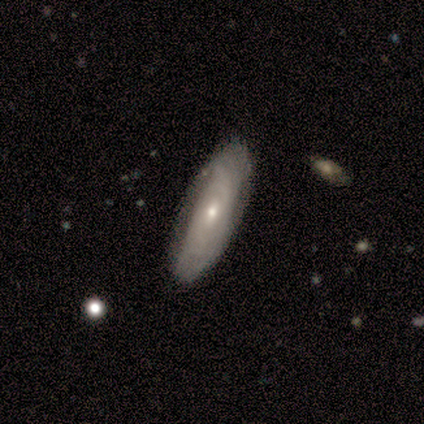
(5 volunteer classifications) Smooth or featured?
  - smooth: 40% * (tied)
  - featured or disk: 40% * (tied)
  - star or artifact: 20%
How rounded?
  - in between: 50% * (tied)
  - cigar-shaped: 50% * (tied)
  - round: 0%
Merging?
  - none: 100% *
  - minor disturbance: 0%
  - major disturbance: 0%
  - merger: 0%